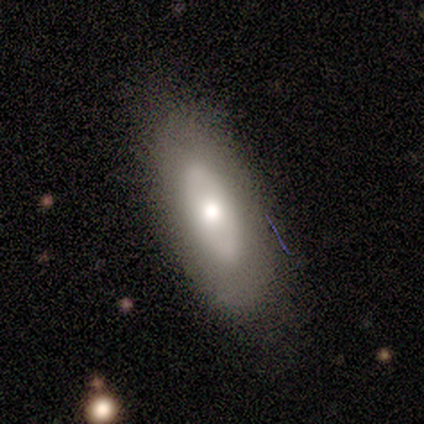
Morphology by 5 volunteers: smooth 60%, featured or disk 40%, star or artifact 0%. Down the decision tree: how rounded — in between (67%); merging — none (80%).